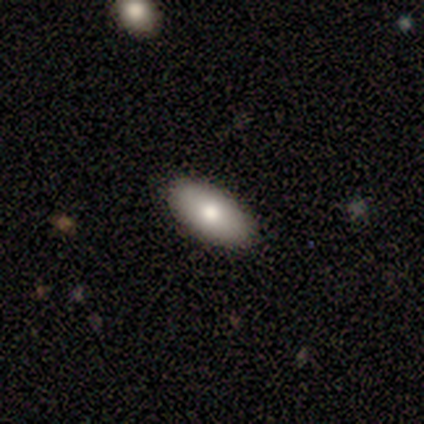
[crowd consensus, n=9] Morphology: type=smooth (78%); roundness=in between (100%); merging=none (100%).